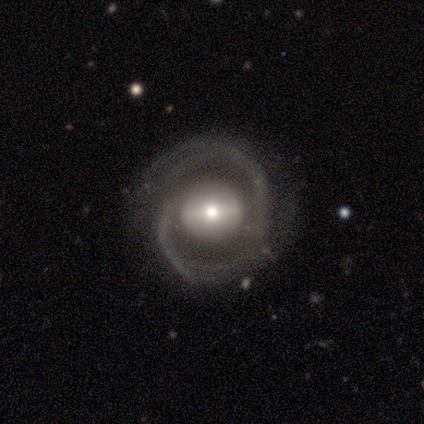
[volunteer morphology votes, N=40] This appears to be a featured or disk galaxy (90%) with a strong bar (49%), 2 (81%) medium (53%) spiral arms (91%) and a moderate central bulge (63%). Merging: none (85%).